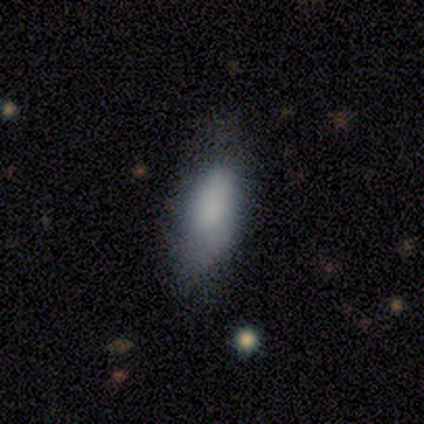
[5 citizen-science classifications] smooth 100%, featured or disk 0%, star or artifact 0%. Down the decision tree: how rounded — in between (60%); merging — none (60%).